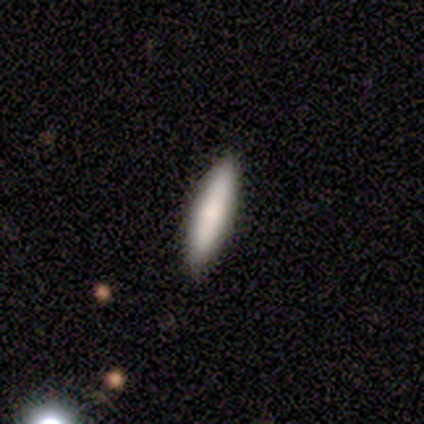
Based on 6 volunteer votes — Volunteers were most divided on "how rounded": cigar-shaped: 60%, in between: 40%, round: 0%. More confident: merging — none (100%); smooth or featured — smooth (83%).